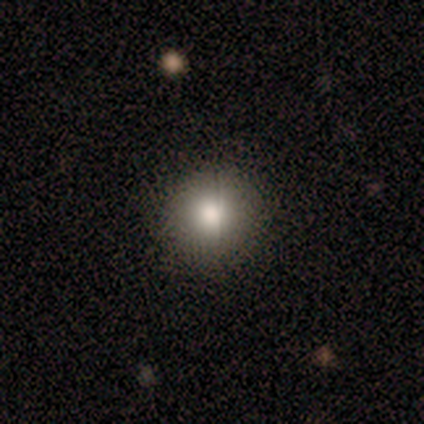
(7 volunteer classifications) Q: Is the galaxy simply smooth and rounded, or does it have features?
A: smooth — 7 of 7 (100%).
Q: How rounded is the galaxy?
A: round — 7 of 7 (100%).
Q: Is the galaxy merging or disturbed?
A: none — 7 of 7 (100%).